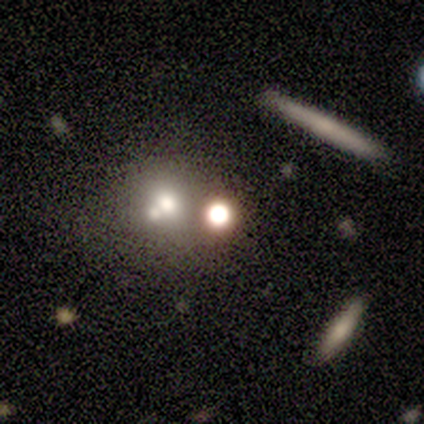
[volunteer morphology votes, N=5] Smooth or featured: smooth — 40% (tied with star or artifact — 40%)
How rounded: round — 50% (tied with in between — 50%)
Merging: none — 100%